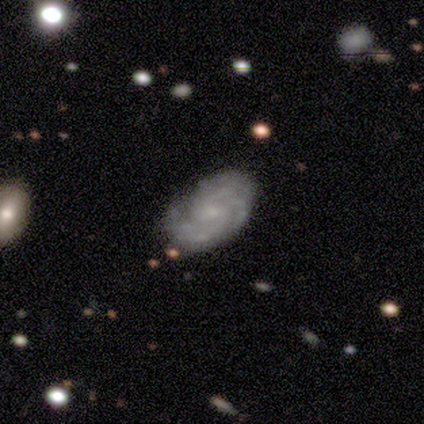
Smooth or featured? 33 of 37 (89%) said featured or disk. Edge-on disk? 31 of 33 (94%) said no. Bar? 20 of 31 (65%) said no. Spiral arms? 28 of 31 (90%) said yes. Spiral winding? 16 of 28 (57%) said tight. Spiral arm count? 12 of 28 (43%) said can't tell. Bulge size? 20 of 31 (65%) said small. Merging? 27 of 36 (75%) said none.